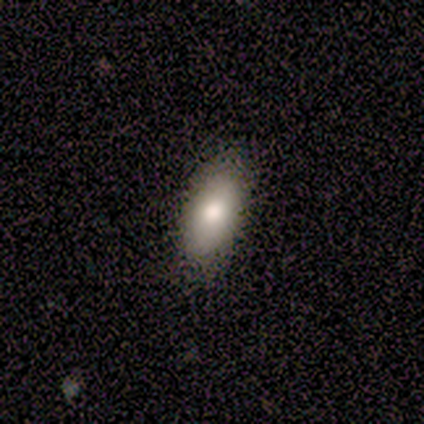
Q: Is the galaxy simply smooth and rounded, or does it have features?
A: smooth — 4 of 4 (100%).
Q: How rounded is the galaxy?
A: in between — 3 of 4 (75%).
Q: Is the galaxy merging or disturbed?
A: none — 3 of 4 (75%).